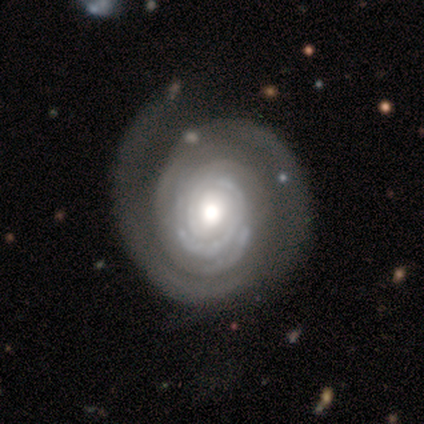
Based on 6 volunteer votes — Q: Smooth or featured?
A: featured or disk (83%); runner-up: smooth (17%)
Q: Edge-on disk?
A: no (100%)
Q: Bar?
A: no (100%)
Q: Spiral arms?
A: yes (100%)
Q: Spiral winding?
A: tight (80%); runner-up: loose (20%)
Q: Spiral arm count?
A: can't tell (60%); runner-up: 1 (20%)
Q: Bulge size?
A: moderate (60%); runner-up: dominant (20%)
Q: Merging?
A: none (50%); runner-up: major disturbance (33%)